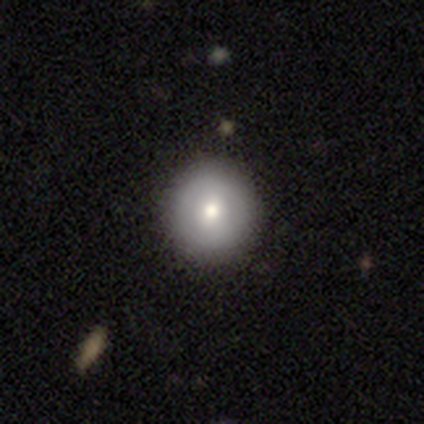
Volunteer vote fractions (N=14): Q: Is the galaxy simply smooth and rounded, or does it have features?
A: smooth — 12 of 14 (86%).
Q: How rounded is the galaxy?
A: round — 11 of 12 (92%).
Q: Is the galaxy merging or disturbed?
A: none — 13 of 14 (93%).